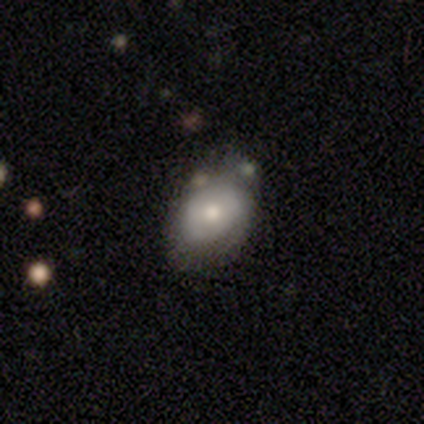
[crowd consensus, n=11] A smooth galaxy with no disk features (55%) that is in between round and cigar-shaped (67%).

Vote fractions:
- Smooth or featured? smooth: 55% / featured or disk: 45% / star or artifact: 0%
- How rounded? in between: 67% / round: 33% / cigar-shaped: 0%
- Merging? none: 55% / minor disturbance: 36% / major disturbance: 9% / merger: 0%